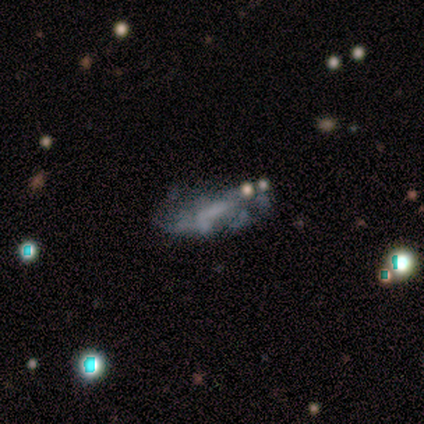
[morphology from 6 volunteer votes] Smooth or featured? 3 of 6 (50%) said featured or disk. Edge-on disk? 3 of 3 (100%) said no. Bar? 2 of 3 (67%) said no. Spiral arms? 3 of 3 (100%) said no. Bulge size? 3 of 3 (100%) said none. Merging? 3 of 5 (60%) said none.